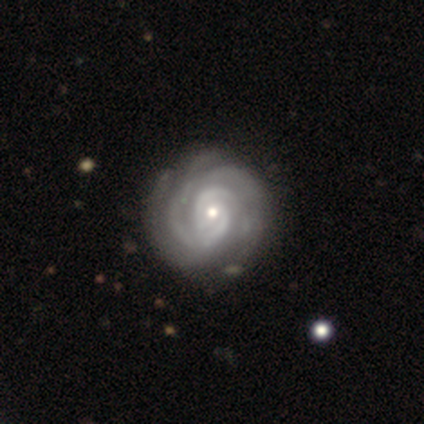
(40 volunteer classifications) featured or disk 100%, smooth 0%, star or artifact 0%. Down the decision tree: edge-on disk — no (100%); bar — no (78%); spiral arms — yes (100%); spiral arm count — 2 (35%); spiral winding — tight (72%); bulge size — small (65%); merging — none (70%).